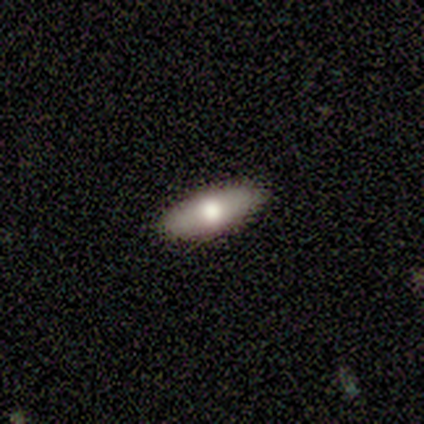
Smooth or featured? 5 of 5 (100%) said smooth. How rounded? 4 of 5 (80%) said in between. Merging? 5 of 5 (100%) said none.